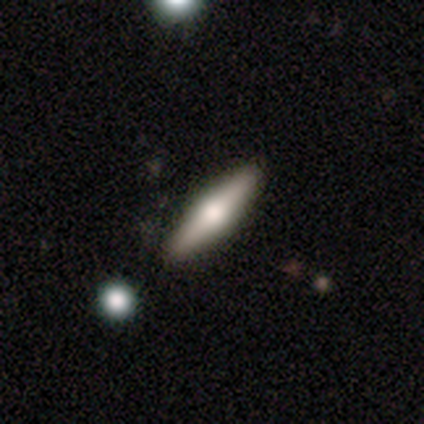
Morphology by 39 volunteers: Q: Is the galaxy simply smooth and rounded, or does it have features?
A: featured or disk — 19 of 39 (49%).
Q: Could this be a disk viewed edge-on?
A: yes — 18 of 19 (95%).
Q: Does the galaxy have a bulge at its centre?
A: rounded — 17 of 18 (94%).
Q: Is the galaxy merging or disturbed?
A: none — 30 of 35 (86%).